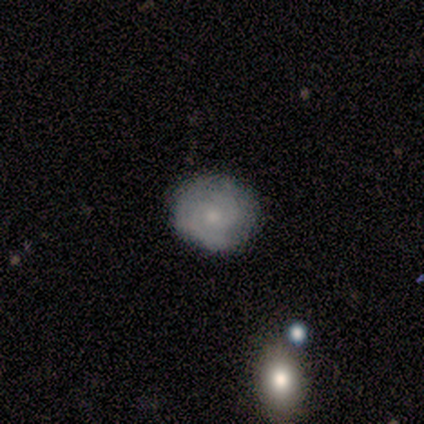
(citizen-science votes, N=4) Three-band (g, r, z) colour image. It shows a featured or disk galaxy (75%) with no bar (67%), 2 (100%) tight (100%) spiral arms (67%) and a moderate central bulge (67%). Merging: none (50%).